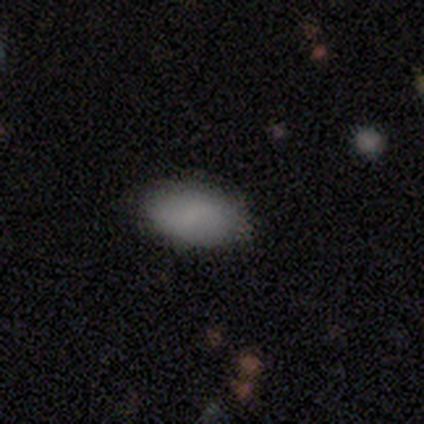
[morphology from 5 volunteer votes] smooth 80%, featured or disk 20%, star or artifact 0%. Down the decision tree: how rounded — in between (100%); merging — none (80%).